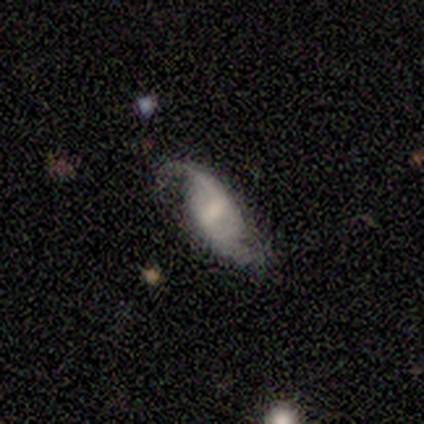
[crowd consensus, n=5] This is clearly a featured or disk galaxy (100%). It is clearly not viewed edge-on (100%). Bar: likely weak (60%). Spiral arm pattern: clearly yes (100%). Spiral arm count: clearly 2 (100%). Spiral winding: likely loose (60%). Central bulge: clearly small (80%). Merging: likely none (60%).